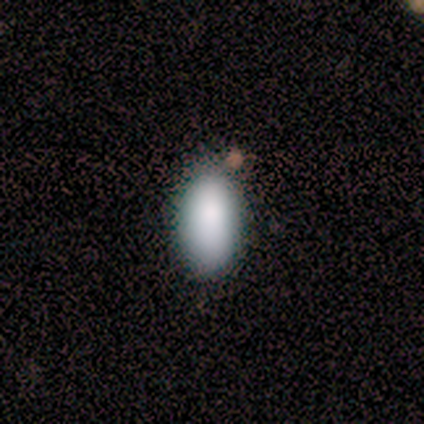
Smooth or featured: smooth — 100%
How rounded: in between — 100%
Merging: none — 80% (minor disturbance — 20%)